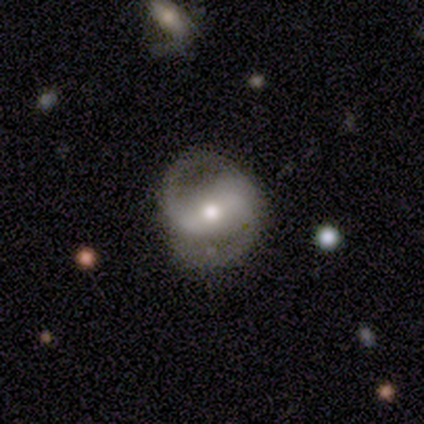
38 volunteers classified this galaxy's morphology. Volunteers were most divided on "bar": weak: 45%, strong: 42%, no: 13%. More confident: edge-on disk — no (100%); spiral arm count — 2 (100%); merging — none (88%); spiral arms — yes (87%); smooth or featured — featured or disk (82%); bulge size — moderate (68%); spiral winding — medium (56%).